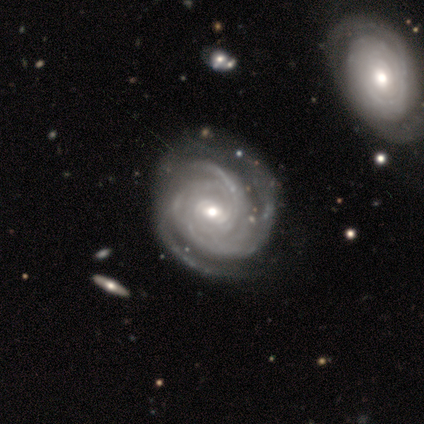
A featured or disk galaxy (100%) with a strong bar (60%), 3 (60%) tight (60%) spiral arms (100%) and a moderate central bulge (60%). Merging: none (80%).